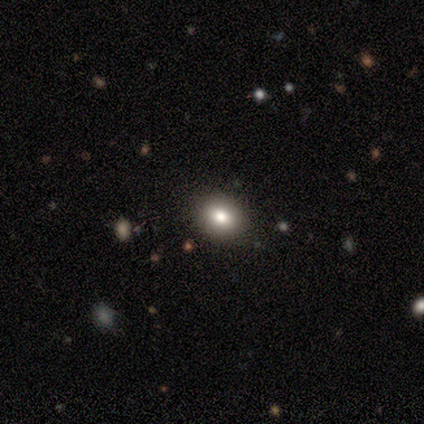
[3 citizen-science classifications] Overall: smooth (100%). How rounded: round (67%; in between 33%). Merging: none (100%).